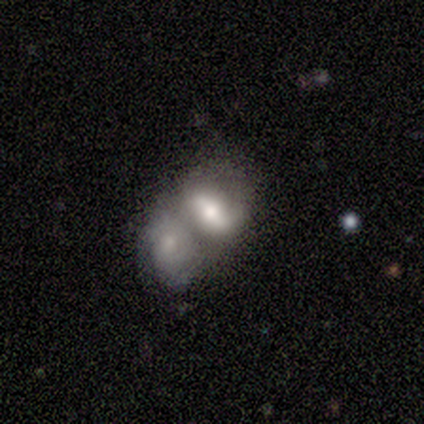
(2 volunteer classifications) Q: Smooth or featured?
A: featured or disk (100%)
Q: Edge-on disk?
A: no (100%)
Q: Bar?
A: weak (50%); tied with: no (50%)
Q: Spiral arms?
A: yes (50%); tied with: no (50%)
Q: Spiral winding?
A: medium (100%)
Q: Spiral arm count?
A: 2 (100%)
Q: Bulge size?
A: moderate (50%); tied with: small (50%)
Q: Merging?
A: merger (100%)